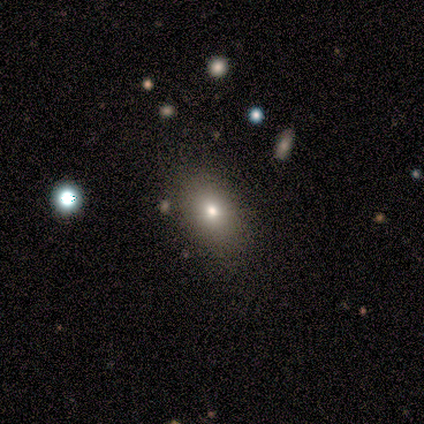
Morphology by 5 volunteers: Volunteers were most divided on "merging": none: 60%, minor disturbance: 20%, merger: 20%, major disturbance: 0%. More confident: smooth or featured — smooth (100%); how rounded — in between (80%).